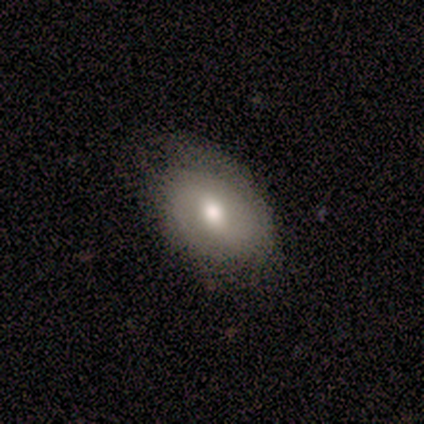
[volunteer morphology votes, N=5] smooth 60%, featured or disk 40%, star or artifact 0%. Down the decision tree: how rounded — in between (100%); merging — none (100%).